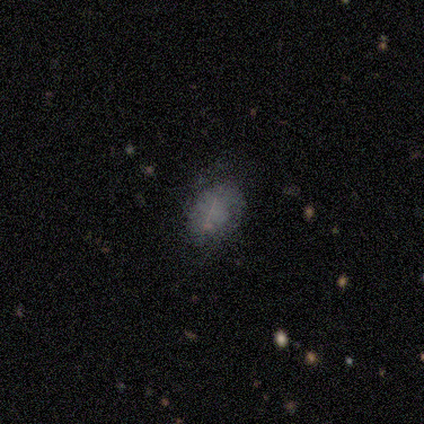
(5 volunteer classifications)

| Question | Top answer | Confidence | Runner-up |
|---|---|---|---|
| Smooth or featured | featured or disk | 60% | smooth (40%) |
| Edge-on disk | no | 100% | — |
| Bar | no | 100% | — |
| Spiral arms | no | 100% | — |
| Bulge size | none | 100% | — |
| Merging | none | 80% | major disturbance (20%) |